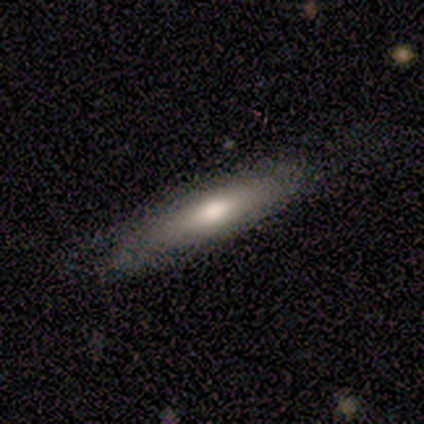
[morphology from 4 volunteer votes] smooth 75%, featured or disk 25%, star or artifact 0%. Down the decision tree: how rounded — cigar-shaped (100%); merging — none (100%).